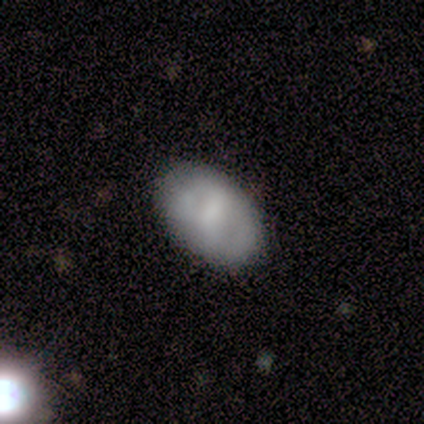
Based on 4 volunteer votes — Smooth or featured? 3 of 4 (75%) said featured or disk. Edge-on disk? 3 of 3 (100%) said no. Bar? 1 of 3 (33%, tied with weak and no) said strong. Spiral arms? 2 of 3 (67%) said yes. Spiral winding? 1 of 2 (50%, tied with medium) said tight. Spiral arm count? 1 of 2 (50%, tied with can't tell) said 2. Bulge size? 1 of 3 (33%, tied with small and none) said moderate. Merging? 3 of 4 (75%) said none.